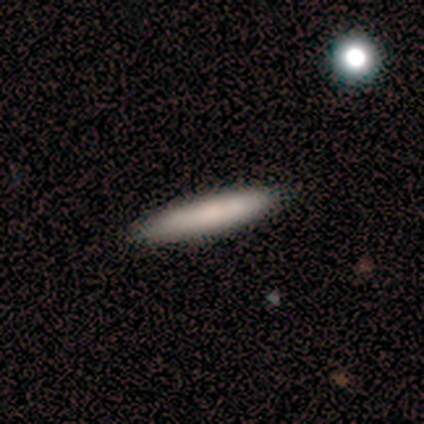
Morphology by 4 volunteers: smooth_or_featured: smooth (p=0.50) [tied with: featured or disk p=0.50]
how_rounded: in between (p=0.50) [tied with: cigar-shaped p=0.50]
merging: none (p=0.75) [alt: minor disturbance p=0.25]